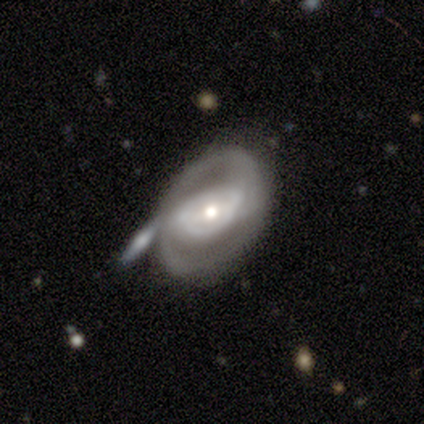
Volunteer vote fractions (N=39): Smooth or featured? 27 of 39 (69%) said featured or disk. Edge-on disk? 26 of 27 (96%) said no. Bar? 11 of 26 (42%) said no. Spiral arms? 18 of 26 (69%) said yes. Spiral winding? 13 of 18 (72%) said medium. Spiral arm count? 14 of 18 (78%) said 2. Bulge size? 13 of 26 (50%) said moderate. Merging? 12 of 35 (34%) said none.